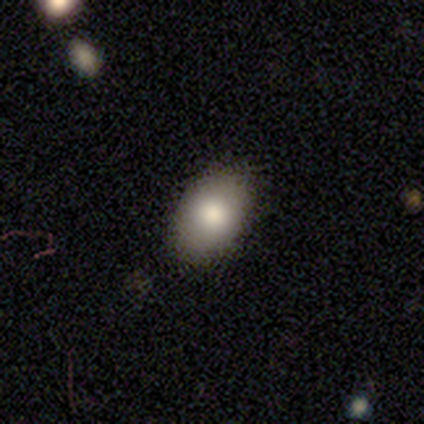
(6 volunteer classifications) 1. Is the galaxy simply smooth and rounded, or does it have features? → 67% smooth, 17% featured or disk, 17% star or artifact.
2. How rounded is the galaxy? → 100% in between, 0% round, 0% cigar-shaped.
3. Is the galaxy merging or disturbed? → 100% none, 0% minor disturbance, 0% major disturbance, 0% merger.